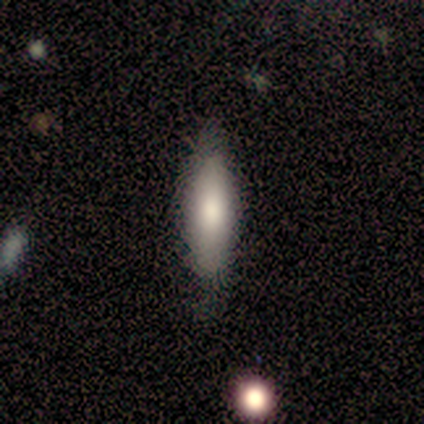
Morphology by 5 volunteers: smooth-or-featured: smooth: 80% | featured or disk: 20% | star or artifact: 0%
  how-rounded: cigar-shaped: 75% | in between: 25% | round: 0%
  merging: none: 60% | minor disturbance: 20% | merger: 20% | major disturbance: 0%